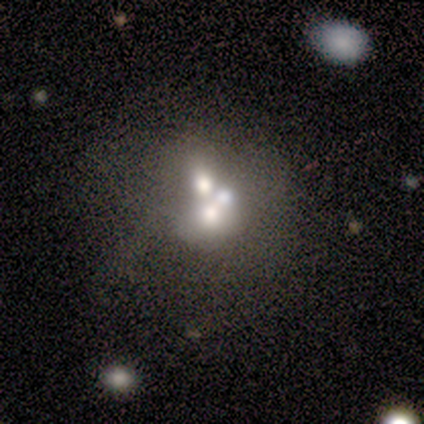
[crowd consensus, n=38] Smooth or featured?
  - featured or disk: 71% *
  - smooth: 21%
  - star or artifact: 8%
Edge-on disk?
  - no: 100% *
  - yes: 0%
Bar?
  - no: 100% *
  - strong: 0%
  - weak: 0%
Spiral arms?
  - no: 100% *
  - yes: 0%
Bulge size?
  - moderate: 48% *
  - large: 19%
  - none: 19%
  - small: 11%
  - dominant: 4%
Merging?
  - merger: 63% *
  - none: 23%
  - major disturbance: 9%
  - minor disturbance: 6%